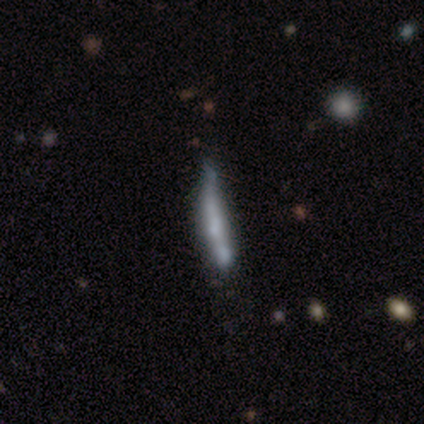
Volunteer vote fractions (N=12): Smooth or featured? 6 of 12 (50%, tied with featured or disk) said smooth. How rounded? 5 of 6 (83%) said cigar-shaped. Merging? 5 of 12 (42%) said none.